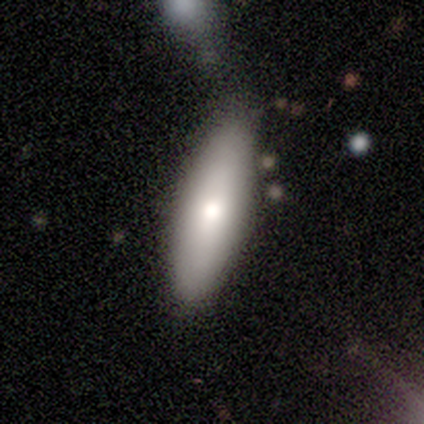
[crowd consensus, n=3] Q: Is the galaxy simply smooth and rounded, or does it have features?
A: smooth — 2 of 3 (67%).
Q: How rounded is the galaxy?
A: cigar-shaped — 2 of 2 (100%).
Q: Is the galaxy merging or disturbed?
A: minor disturbance — 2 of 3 (67%).